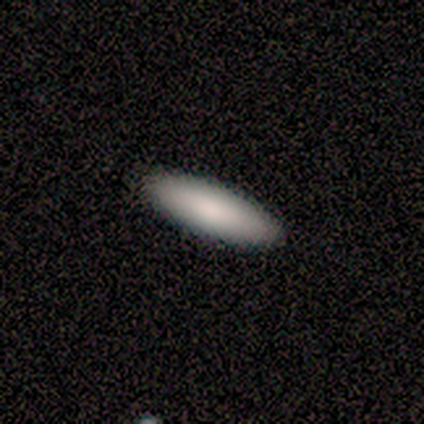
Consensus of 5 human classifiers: A smooth galaxy with no disk features (100%) that is cigar-shaped (80%). Merging: none (100%).